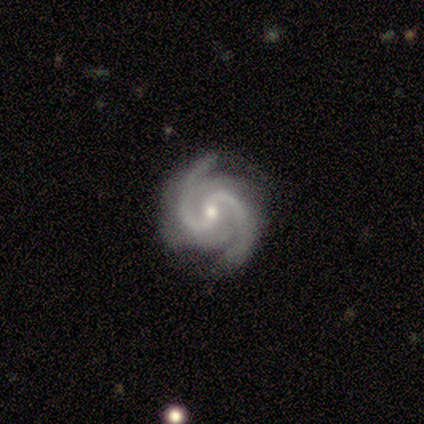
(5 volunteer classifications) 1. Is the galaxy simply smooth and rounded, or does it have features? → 80% featured or disk, 20% star or artifact, 0% smooth.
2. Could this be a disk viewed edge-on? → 100% no, 0% yes.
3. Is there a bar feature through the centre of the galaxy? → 50% weak, 25% strong, 25% no.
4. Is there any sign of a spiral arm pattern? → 100% yes, 0% no.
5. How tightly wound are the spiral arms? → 100% medium, 0% tight, 0% loose.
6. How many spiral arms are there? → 100% 2, 0% 1, 0% 3, 0% 4, 0% more than 4, 0% can't tell.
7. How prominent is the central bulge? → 75% moderate, 25% small, 0% dominant, 0% large, 0% none.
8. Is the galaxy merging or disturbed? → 100% none, 0% minor disturbance, 0% major disturbance, 0% merger.